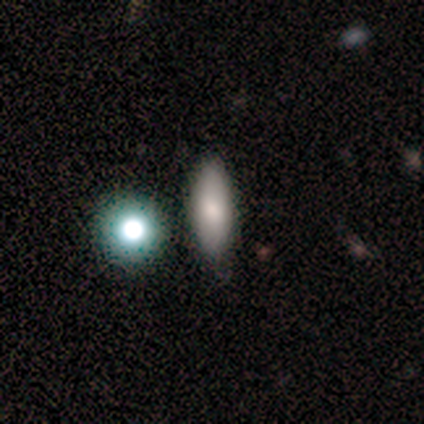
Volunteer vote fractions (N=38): A smooth galaxy with no disk features (63%) that is in between round and cigar-shaped (75%). Merging: none (66%).